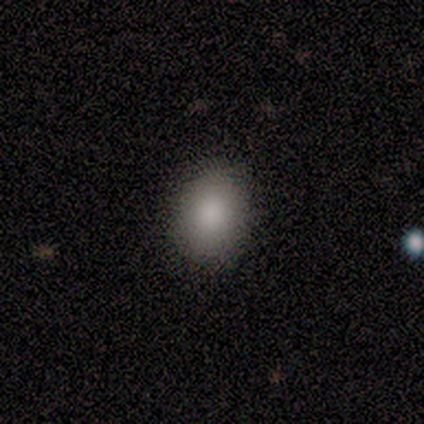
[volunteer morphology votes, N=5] smooth 100%, featured or disk 0%, star or artifact 0%. Down the decision tree: how rounded — in between (80%); merging — none (100%).